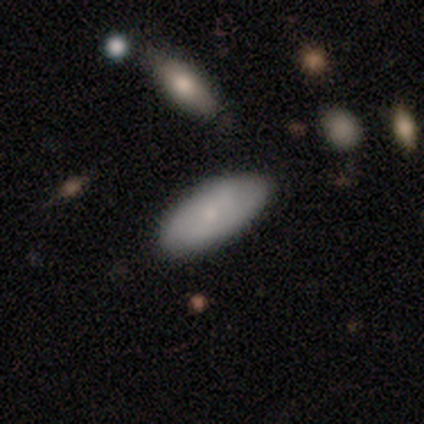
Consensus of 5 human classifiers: Smooth or featured? 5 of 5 (100%) said smooth. How rounded? 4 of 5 (80%) said in between. Merging? 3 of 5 (60%) said none.